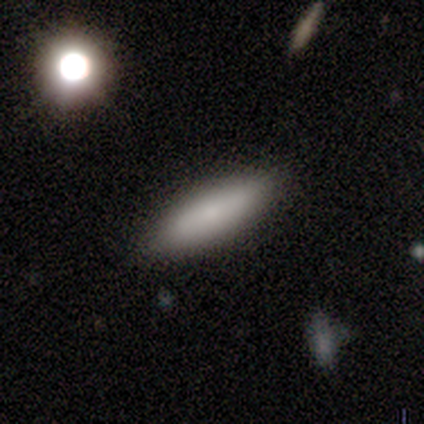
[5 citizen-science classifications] smooth-or-featured: smooth: 100% | featured or disk: 0% | star or artifact: 0%
  how-rounded: in between: 60% | cigar-shaped: 40% | round: 0%
  merging: none: 100% | minor disturbance: 0% | major disturbance: 0% | merger: 0%